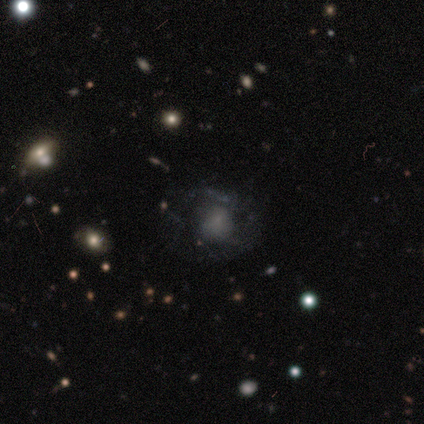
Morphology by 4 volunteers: Q: Smooth or featured?
A: featured or disk (75%); runner-up: smooth (25%)
Q: Edge-on disk?
A: no (100%)
Q: Bar?
A: no (100%)
Q: Spiral arms?
A: no (67%); runner-up: yes (33%)
Q: Bulge size?
A: none (67%); runner-up: small (33%)
Q: Merging?
A: major disturbance (75%); runner-up: none (25%)